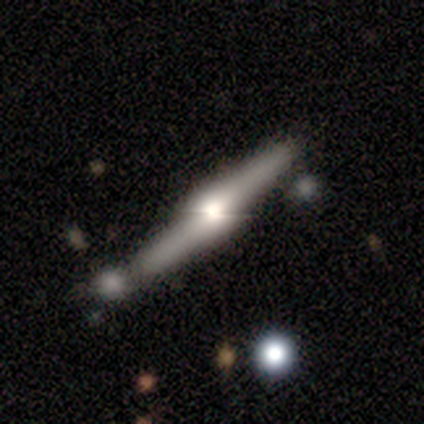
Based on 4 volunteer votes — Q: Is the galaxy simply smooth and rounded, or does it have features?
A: featured or disk — 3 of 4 (75%).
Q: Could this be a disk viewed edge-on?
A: yes — 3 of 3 (100%).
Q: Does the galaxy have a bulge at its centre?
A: rounded — 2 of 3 (67%).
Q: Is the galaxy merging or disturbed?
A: none — 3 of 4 (75%).